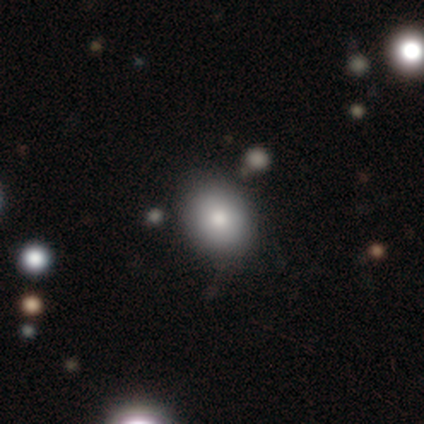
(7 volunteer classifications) smooth-or-featured: smooth: 71% | featured or disk: 14% | star or artifact: 14%
  how-rounded: in between: 80% | round: 20% | cigar-shaped: 0%
  merging: none: 83% | minor disturbance: 17% | major disturbance: 0% | merger: 0%